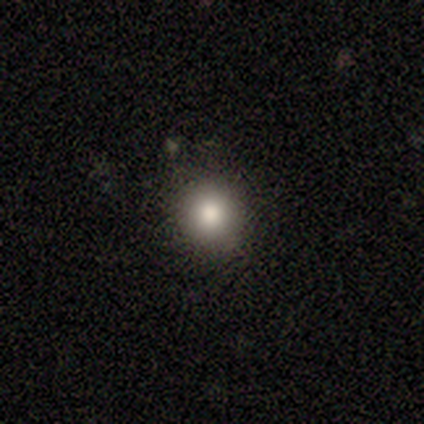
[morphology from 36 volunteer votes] This is likely a smooth galaxy (72%). How rounded: clearly round (96%). Merging: clearly none (90%).